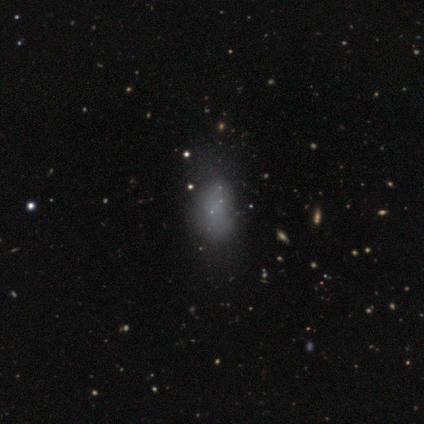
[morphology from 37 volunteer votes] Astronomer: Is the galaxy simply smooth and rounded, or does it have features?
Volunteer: smooth — 62%.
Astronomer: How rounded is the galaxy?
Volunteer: in between — 70%.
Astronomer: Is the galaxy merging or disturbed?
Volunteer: none — 44% (runner-up: minor disturbance, 30%).